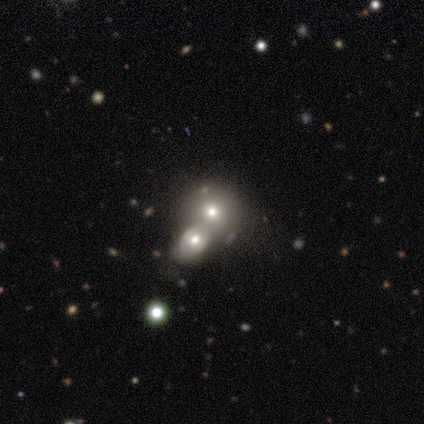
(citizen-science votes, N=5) Smooth or featured? 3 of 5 (60%) said smooth. How rounded? 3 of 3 (100%) said round. Merging? 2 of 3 (67%) said none.